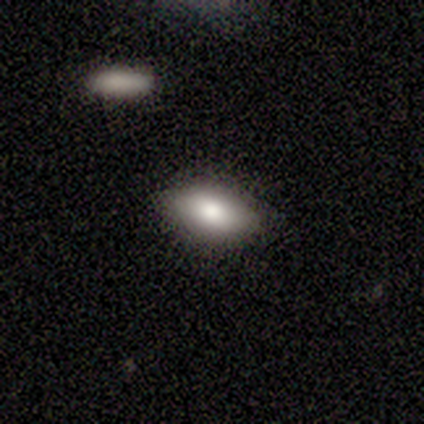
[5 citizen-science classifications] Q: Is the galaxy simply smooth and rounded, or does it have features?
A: smooth — 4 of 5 (80%).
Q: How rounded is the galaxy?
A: in between — 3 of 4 (75%).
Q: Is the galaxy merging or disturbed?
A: none — 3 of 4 (75%).